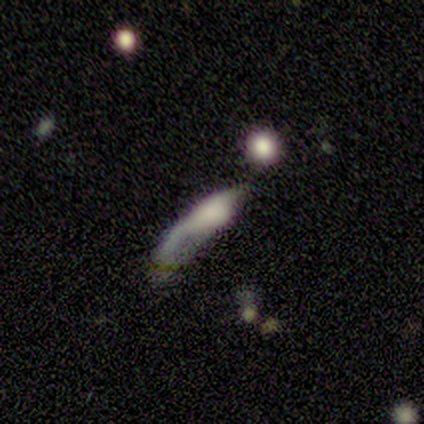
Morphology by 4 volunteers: type=featured or disk (75%); edge-on=yes (100%); edge-on bulge=rounded (67%); merging=none (50%).